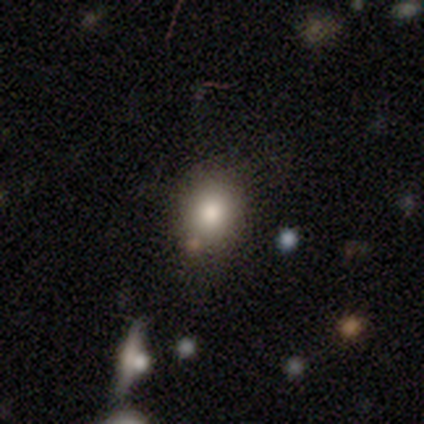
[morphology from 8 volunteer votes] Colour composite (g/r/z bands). It shows a smooth galaxy with no disk features (100%) that is in between round and cigar-shaped (75%). Merging: none (75%).